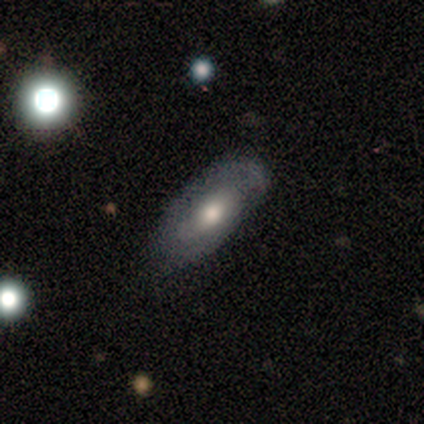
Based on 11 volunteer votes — Volunteers were most divided on "bar": weak: 50%, no: 33%, strong: 17%. More confident: edge-on disk — no (100%); spiral arms — yes (83%); merging — none (80%); spiral winding — tight (60%); spiral arm count — 2 (60%); smooth or featured — featured or disk (55%); bulge size — large (50%).